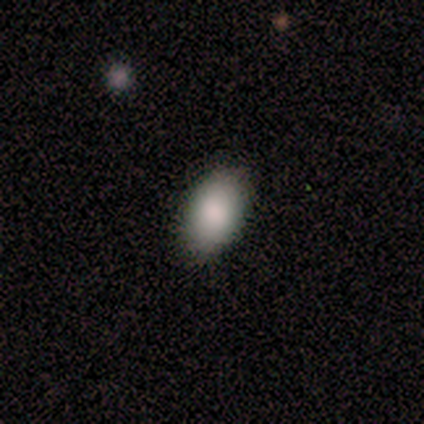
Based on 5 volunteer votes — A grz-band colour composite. It shows a smooth galaxy with no disk features (80%) that is in between round and cigar-shaped (100%). Merging: none (80%).